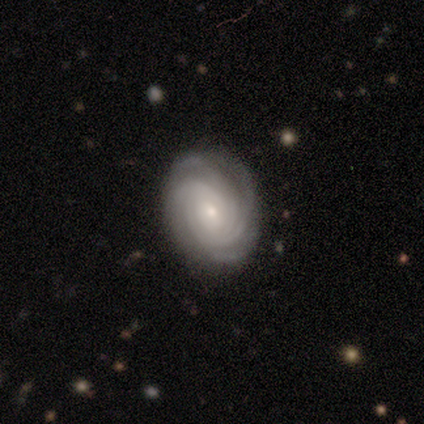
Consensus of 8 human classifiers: Q: Smooth or featured?
A: featured or disk (100%)
Q: Edge-on disk?
A: no (100%)
Q: Bar?
A: no (62%); runner-up: weak (38%)
Q: Spiral arms?
A: yes (100%)
Q: Spiral winding?
A: tight (100%)
Q: Spiral arm count?
A: 3 (50%); runner-up: can't tell (25%)
Q: Bulge size?
A: small (88%); runner-up: moderate (12%)
Q: Merging?
A: none (88%); runner-up: minor disturbance (12%)